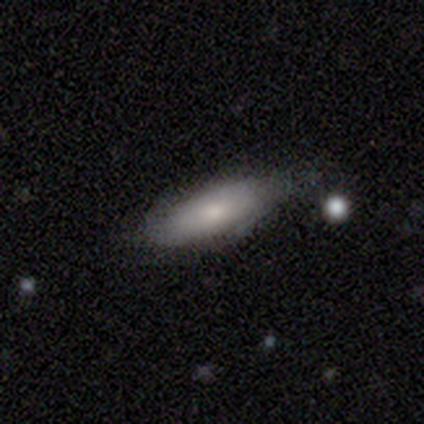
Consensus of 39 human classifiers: A smooth galaxy with no disk features (72%) that is in between round and cigar-shaped (46%, tied with cigar-shaped). Merging: none (65%).